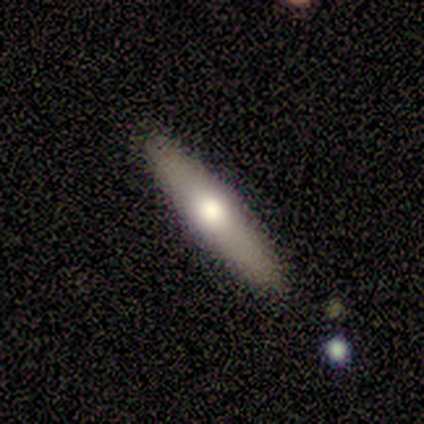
A smooth galaxy with no disk features (100%) that is cigar-shaped (100%).

Vote fractions:
- Smooth or featured? smooth: 100% / featured or disk: 0% / star or artifact: 0%
- How rounded? cigar-shaped: 100% / round: 0% / in between: 0%
- Merging? none: 50% (tied) / minor disturbance: 50% (tied) / major disturbance: 0% / merger: 0%